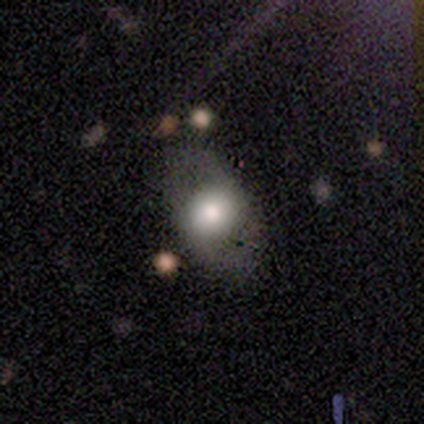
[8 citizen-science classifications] Smooth or featured?
  - smooth: 50% * (tied)
  - featured or disk: 50% * (tied)
  - star or artifact: 0%
How rounded?
  - in between: 75% *
  - round: 25%
  - cigar-shaped: 0%
Merging?
  - none: 62% *
  - minor disturbance: 25%
  - merger: 12%
  - major disturbance: 0%